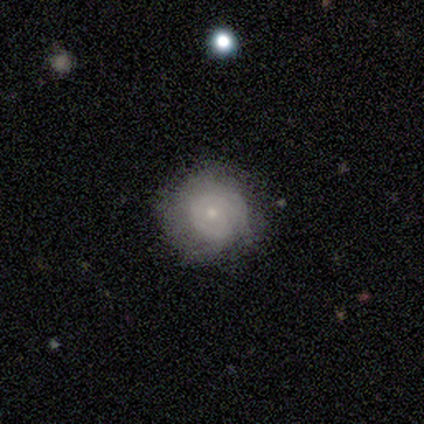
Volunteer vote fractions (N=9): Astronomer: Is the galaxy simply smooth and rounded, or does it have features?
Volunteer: smooth — 56% (runner-up: featured or disk, 33%).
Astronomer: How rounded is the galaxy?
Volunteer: round — 100%.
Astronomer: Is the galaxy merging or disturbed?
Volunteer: none — 88%.